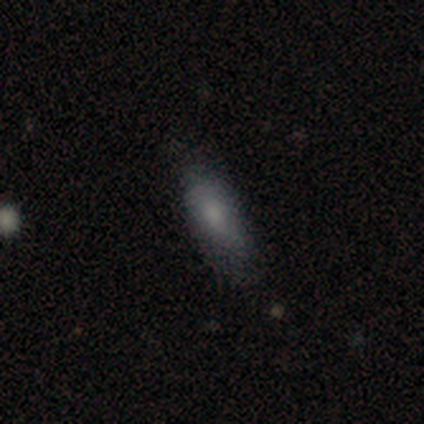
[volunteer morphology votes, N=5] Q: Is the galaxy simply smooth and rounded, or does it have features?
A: smooth — 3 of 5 (60%).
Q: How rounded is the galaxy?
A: in between — 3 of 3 (100%).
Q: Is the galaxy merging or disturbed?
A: none — 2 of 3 (67%).